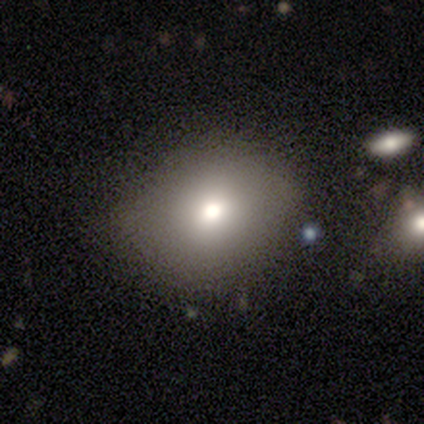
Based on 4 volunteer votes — smooth_or_featured: smooth (p=0.75) [alt: star or artifact p=0.25]
how_rounded: round (p=1.00)
merging: none (p=0.33) [tied with: minor disturbance p=0.33, major disturbance p=0.33]